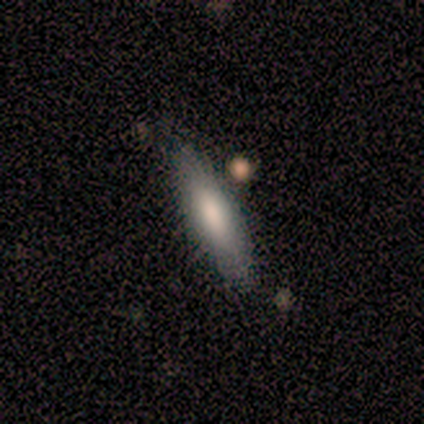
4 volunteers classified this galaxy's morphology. This appears to be a smooth galaxy with no disk features (100%) that is in between round and cigar-shaped (50%, tied with cigar-shaped). Merging: none (75%).